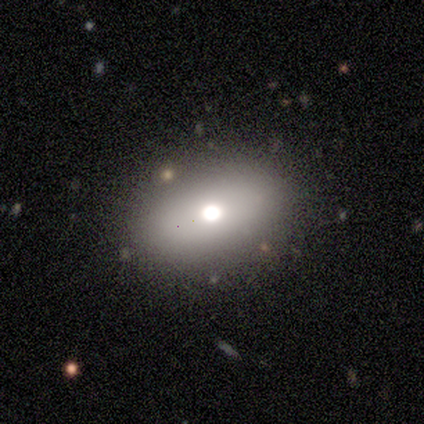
This is likely a smooth galaxy (60%). How rounded: likely round (67%). Merging: clearly none (80%).